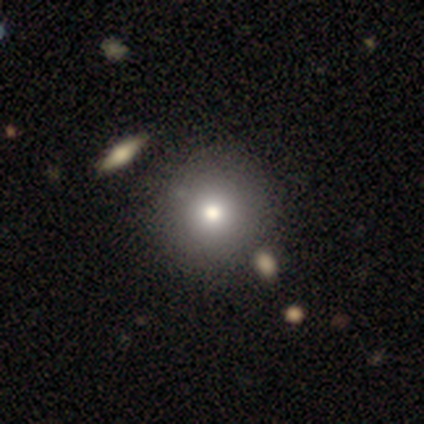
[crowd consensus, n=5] smooth_or_featured: featured or disk (p=0.60) [alt: smooth p=0.20]
disk_edge_on: no (p=1.00)
bar: no (p=1.00)
has_spiral_arms: no (p=1.00)
bulge_size: large (p=0.67) [alt: moderate p=0.33]
merging: none (p=1.00)